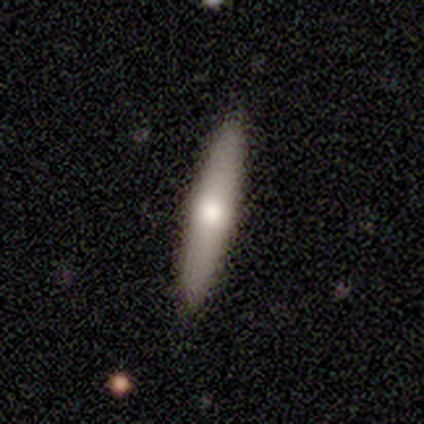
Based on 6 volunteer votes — smooth-or-featured: smooth: 50% (tied) | featured or disk: 50% (tied) | star or artifact: 0%
  how-rounded: cigar-shaped: 100% | round: 0% | in between: 0%
  merging: none: 100% | minor disturbance: 0% | major disturbance: 0% | merger: 0%